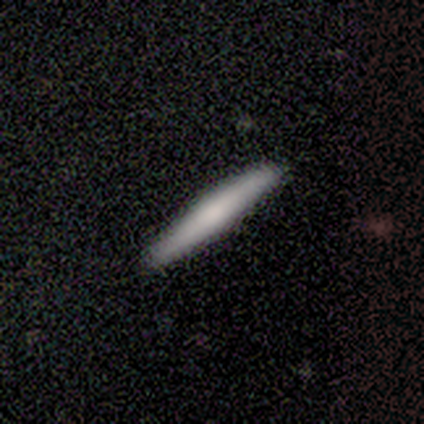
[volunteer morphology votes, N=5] Overall: smooth (80%). How rounded: cigar-shaped (100%). Merging: none (80%).